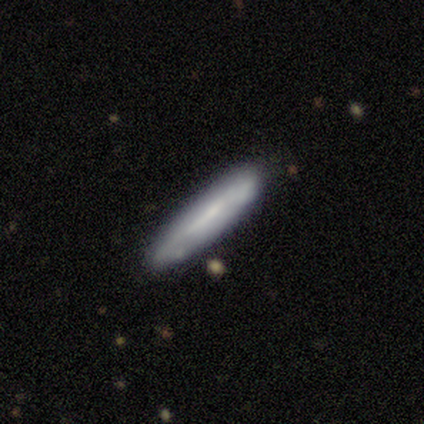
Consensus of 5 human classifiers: Overall: featured or disk (60%; smooth 40%). Edge-on disk: yes (100%). Edge-on bulge: none (67%; boxy 33%). Merging: none (80%).